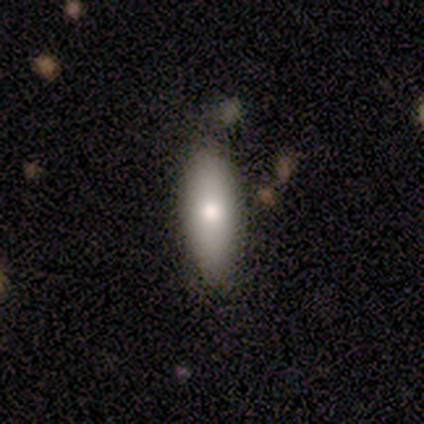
Smooth or featured?
  - smooth: 80% *
  - featured or disk: 20%
  - star or artifact: 0%
How rounded?
  - in between: 75% *
  - cigar-shaped: 25%
  - round: 0%
Merging?
  - none: 80% *
  - minor disturbance: 20%
  - major disturbance: 0%
  - merger: 0%